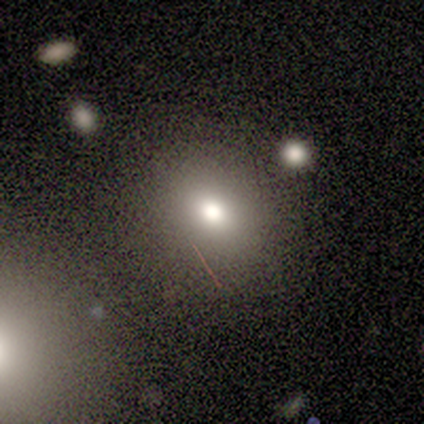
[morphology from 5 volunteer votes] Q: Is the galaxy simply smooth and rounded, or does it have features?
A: smooth — 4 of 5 (80%).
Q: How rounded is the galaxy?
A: round — 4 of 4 (100%).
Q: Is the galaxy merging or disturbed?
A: none — 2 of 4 (50%).